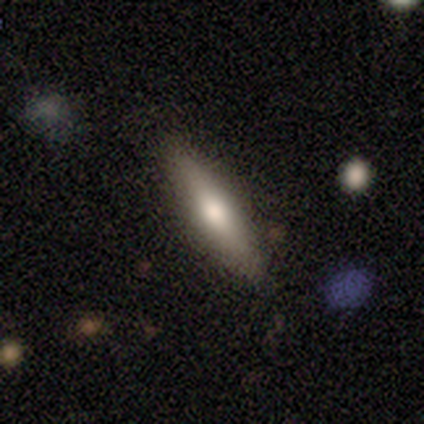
Smooth or featured? smooth (100%)
How rounded? cigar-shaped (75%)
Merging? none (100%)